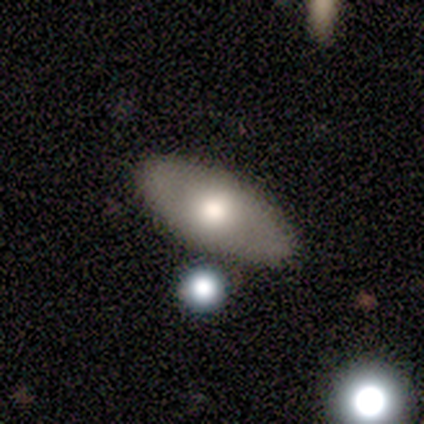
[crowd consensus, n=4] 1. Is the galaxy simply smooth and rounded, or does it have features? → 50% smooth (tied), 50% featured or disk (tied), 0% star or artifact.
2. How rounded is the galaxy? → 50% round (tied), 50% in between (tied), 0% cigar-shaped.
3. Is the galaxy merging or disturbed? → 75% none, 25% merger, 0% minor disturbance, 0% major disturbance.